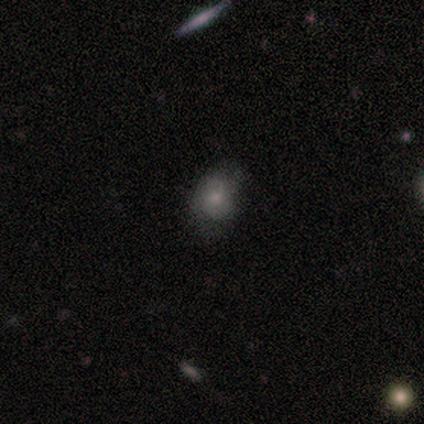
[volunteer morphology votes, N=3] Smooth or featured? 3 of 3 (100%) said smooth. How rounded? 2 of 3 (67%) said in between. Merging? 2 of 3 (67%) said none.